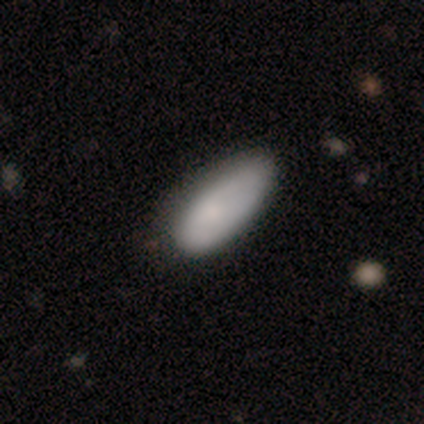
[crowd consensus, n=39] smooth_or_featured: smooth (p=0.77) [alt: featured or disk p=0.18]
how_rounded: in between (p=0.87) [alt: cigar-shaped p=0.13]
merging: none (p=0.59) [alt: minor disturbance p=0.30]